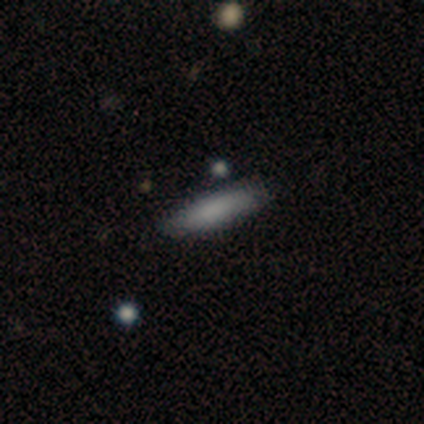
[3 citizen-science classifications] Consensus on every question: smooth or featured — smooth (100%); how rounded — cigar-shaped (100%); merging — none (100%).